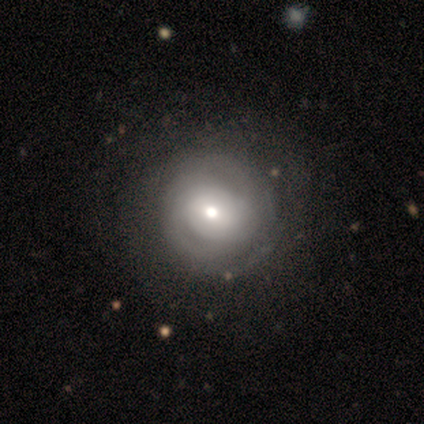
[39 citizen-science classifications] Smooth or featured? 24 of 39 (62%) said featured or disk. Edge-on disk? 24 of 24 (100%) said no. Bar? 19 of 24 (79%) said no. Spiral arms? 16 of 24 (67%) said no. Bulge size? 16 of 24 (67%) said moderate. Merging? 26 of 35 (74%) said none.